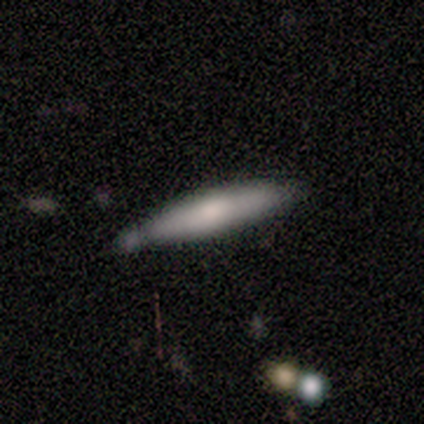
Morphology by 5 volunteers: Volunteers were most divided on "smooth or featured": smooth: 60%, featured or disk: 40%, star or artifact: 0%. More confident: how rounded — cigar-shaped (100%); merging — none (60%).